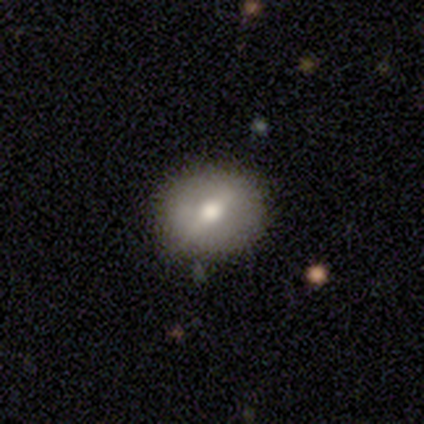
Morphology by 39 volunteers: smooth 54%, featured or disk 31%, star or artifact 15%. Down the decision tree: how rounded — round (57%); merging — none (76%).